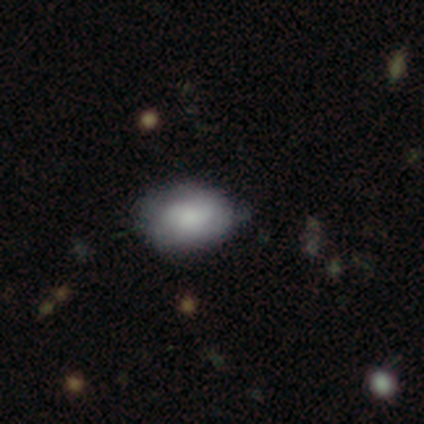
This appears to be a smooth galaxy with no disk features (100%) that is in between round and cigar-shaped (60%). Merging: none (80%).